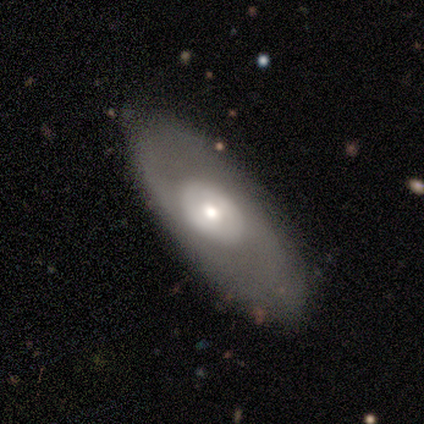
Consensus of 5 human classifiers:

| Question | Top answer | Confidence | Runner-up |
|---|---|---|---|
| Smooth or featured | featured or disk | 80% | smooth (20%) |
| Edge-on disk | no | 100% | — |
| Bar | no | 75% | weak (25%) |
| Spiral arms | no | 100% | — |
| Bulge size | moderate | 50% | tied: small (50%) |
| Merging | none | 80% | minor disturbance (20%) |